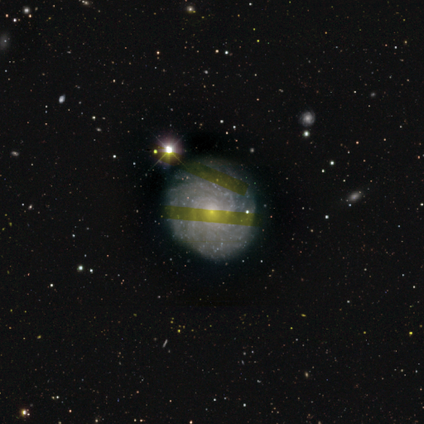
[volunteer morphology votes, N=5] featured or disk 100%, smooth 0%, star or artifact 0%. Down the decision tree: edge-on disk — no (100%); bar — no (100%); spiral arms — yes (100%); spiral arm count — 2 (40%, tied with more than 4); spiral winding — tight (100%); bulge size — small (100%); merging — none (100%).